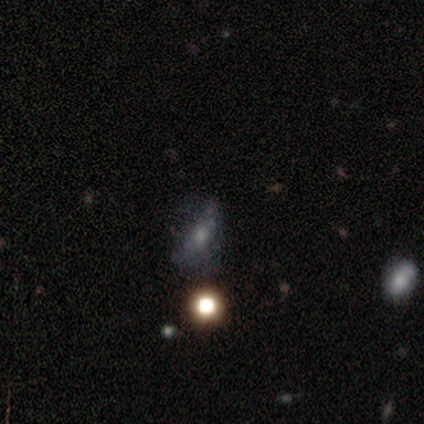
This is marginally a smooth galaxy (40%, tied with star or artifact). How rounded: possibly in between (50%, tied with cigar-shaped). Merging: likely minor disturbance (67%).